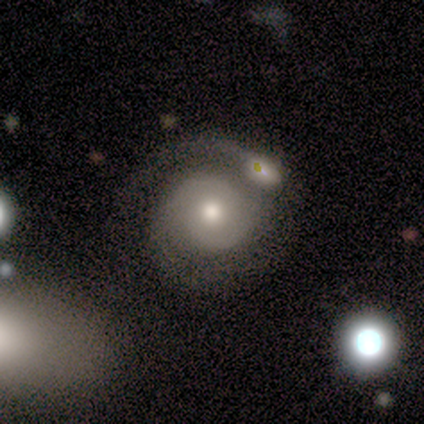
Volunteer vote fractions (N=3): Smooth or featured? 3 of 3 (100%) said featured or disk. Edge-on disk? 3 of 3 (100%) said no. Bar? 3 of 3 (100%) said no. Spiral arms? 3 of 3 (100%) said yes. Spiral winding? 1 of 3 (33%, tied with medium and loose) said tight. Spiral arm count? 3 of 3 (100%) said 2. Bulge size? 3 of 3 (100%) said moderate. Merging? 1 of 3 (33%, tied with major disturbance and merger) said none.